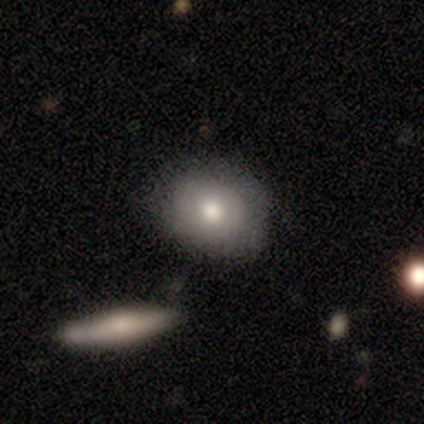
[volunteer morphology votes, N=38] A smooth galaxy with no disk features (71%) that is round (52%).

Vote fractions:
- Smooth or featured? smooth: 71% / featured or disk: 21% / star or artifact: 8%
- How rounded? round: 52% / in between: 44% / cigar-shaped: 4%
- Merging? none: 74% / minor disturbance: 14% / major disturbance: 6% / merger: 6%